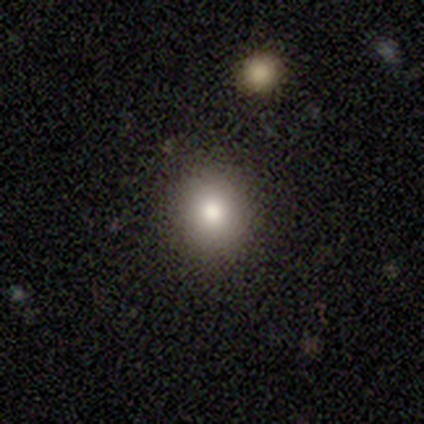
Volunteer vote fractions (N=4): Smooth or featured? 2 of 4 (50%) said smooth. How rounded? 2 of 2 (100%) said round. Merging? 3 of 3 (100%) said none.